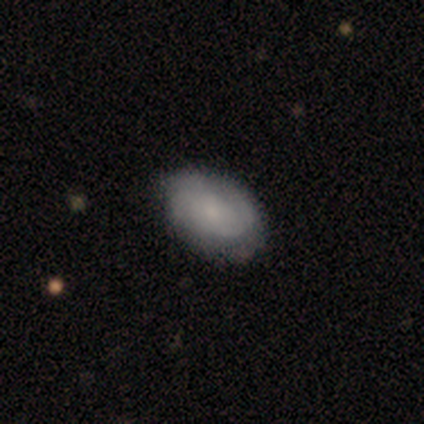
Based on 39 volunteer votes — featured or disk 56%, smooth 44%, star or artifact 0%. Down the decision tree: edge-on disk — no (100%); bar — no (86%); spiral arms — yes (82%); spiral arm count — 2 (56%); spiral winding — medium (56%); bulge size — small (68%); merging — none (69%).